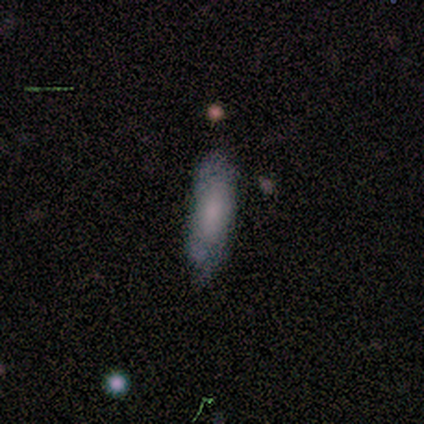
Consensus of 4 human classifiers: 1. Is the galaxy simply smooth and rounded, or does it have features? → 100% smooth, 0% featured or disk, 0% star or artifact.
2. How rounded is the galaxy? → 100% cigar-shaped, 0% round, 0% in between.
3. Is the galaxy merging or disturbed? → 100% none, 0% minor disturbance, 0% major disturbance, 0% merger.